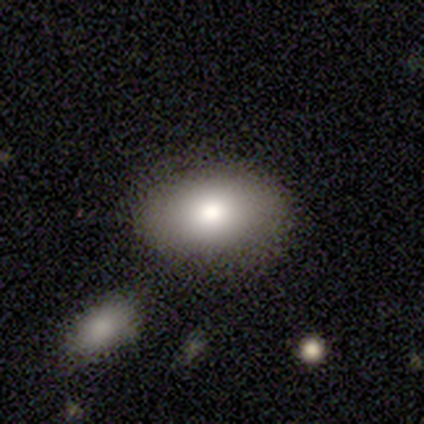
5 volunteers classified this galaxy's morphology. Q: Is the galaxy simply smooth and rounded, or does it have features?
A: smooth — 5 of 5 (100%).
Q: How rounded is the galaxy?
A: in between — 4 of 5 (80%).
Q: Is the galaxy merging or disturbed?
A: none — 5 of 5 (100%).